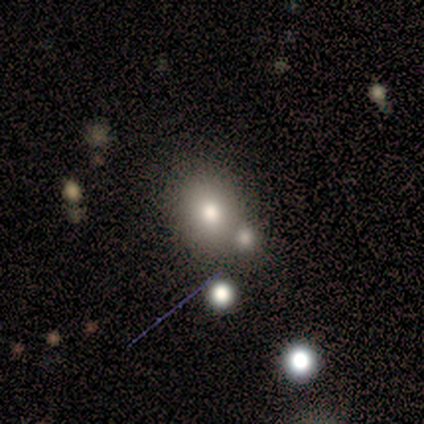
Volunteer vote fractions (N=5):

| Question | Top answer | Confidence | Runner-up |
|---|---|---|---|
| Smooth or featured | smooth | 40% | tied: star or artifact (40%) |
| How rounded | round | 100% | — |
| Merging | none | 67% | major disturbance (33%) |